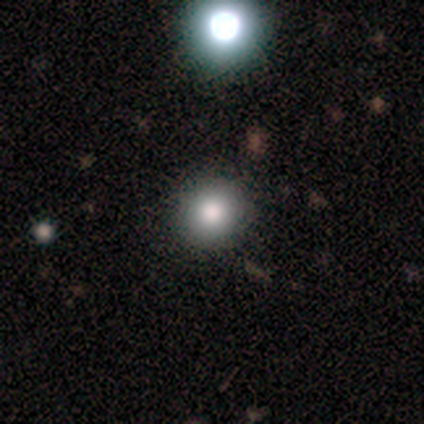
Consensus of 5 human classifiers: Volunteers were most divided on "how rounded": round: 75%, in between: 25%, cigar-shaped: 0%. More confident: smooth or featured — smooth (80%); merging — none (80%).